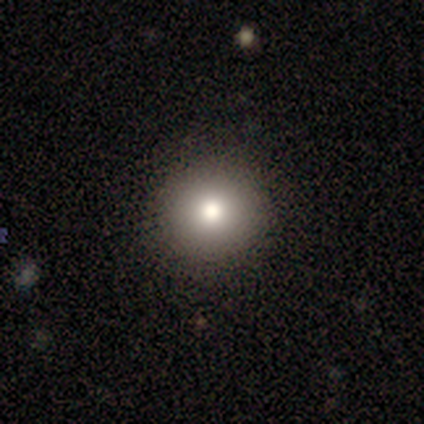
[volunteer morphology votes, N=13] Smooth or featured?
  - smooth: 62% *
  - star or artifact: 38%
  - featured or disk: 0%
How rounded?
  - round: 88% *
  - in between: 12%
  - cigar-shaped: 0%
Merging?
  - none: 88% *
  - minor disturbance: 12%
  - major disturbance: 0%
  - merger: 0%